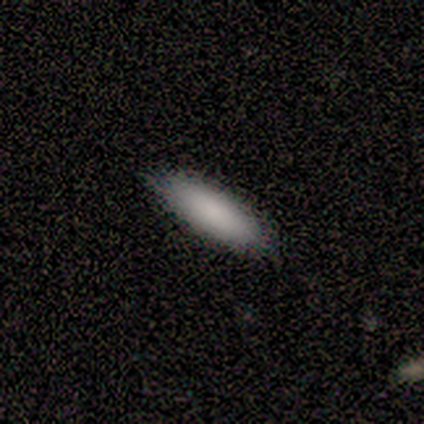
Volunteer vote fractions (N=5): Volunteers were most divided on "how rounded": in between: 60%, cigar-shaped: 40%, round: 0%. More confident: smooth or featured — smooth (100%); merging — none (100%).